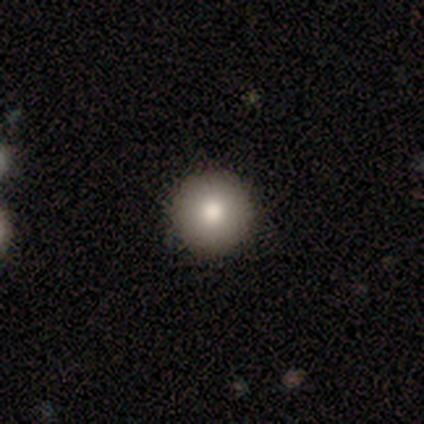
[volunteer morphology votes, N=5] A smooth galaxy with no disk features (60%) that is round (100%). Merging: none (75%).